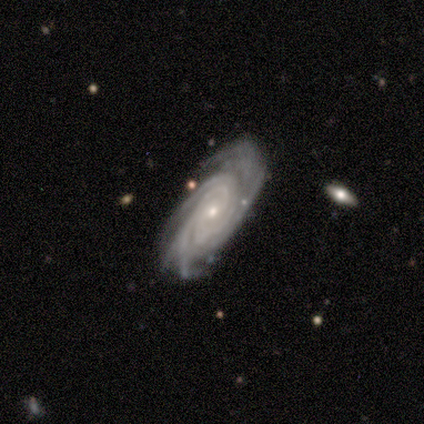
Smooth or featured: featured or disk — 100%
Edge-on disk: no — 80% (yes — 20%)
Bar: weak — 75% (no — 25%)
Spiral arms: yes — 100%
Spiral winding: tight — 75% (medium — 25%)
Spiral arm count: more than 4 — 50% (2 — 25%)
Bulge size: small — 75% (moderate — 25%)
Merging: none — 60% (minor disturbance — 40%)